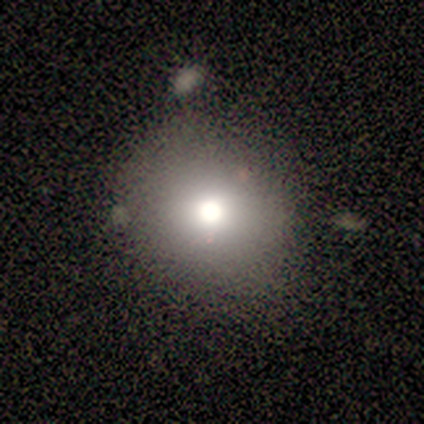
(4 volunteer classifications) Q: Smooth or featured?
A: smooth (50%); runner-up: featured or disk (25%)
Q: How rounded?
A: round (100%)
Q: Merging?
A: none (67%); runner-up: minor disturbance (33%)